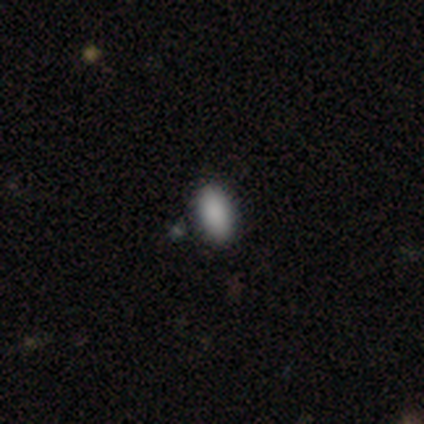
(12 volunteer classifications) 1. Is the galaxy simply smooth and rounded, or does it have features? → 92% smooth, 8% star or artifact, 0% featured or disk.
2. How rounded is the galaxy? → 100% in between, 0% round, 0% cigar-shaped.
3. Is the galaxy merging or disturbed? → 100% none, 0% minor disturbance, 0% major disturbance, 0% merger.